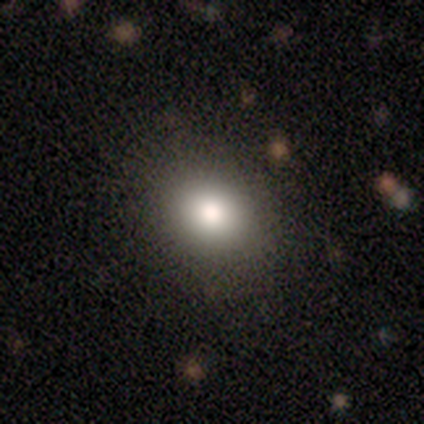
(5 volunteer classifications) A smooth galaxy with no disk features (80%) that is round (75%).

Vote fractions:
- Smooth or featured? smooth: 80% / star or artifact: 20% / featured or disk: 0%
- How rounded? round: 75% / in between: 25% / cigar-shaped: 0%
- Merging? none: 75% / minor disturbance: 25% / major disturbance: 0% / merger: 0%